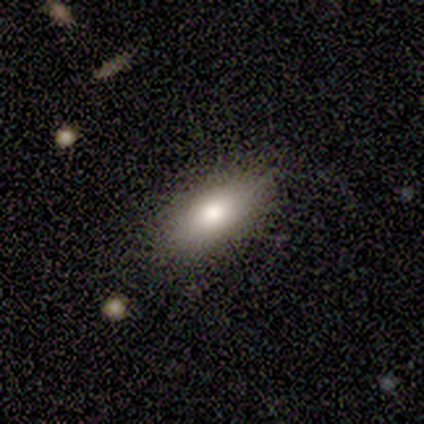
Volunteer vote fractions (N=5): Smooth or featured: smooth — 80% (featured or disk — 20%)
How rounded: in between — 75% (cigar-shaped — 25%)
Merging: minor disturbance — 60% (none — 40%)